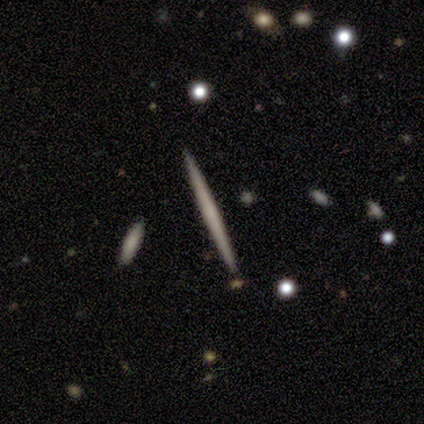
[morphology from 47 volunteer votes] Smooth or featured? featured or disk (60%)
Edge-on disk? yes (100%)
Edge-on bulge? none (89%)
Merging? none (98%)